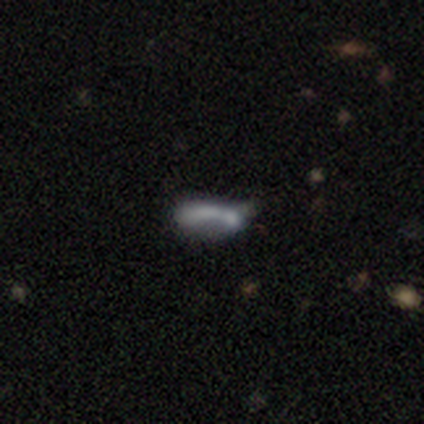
A smooth galaxy with no disk features (62%) that is cigar-shaped (80%). Merging: merger (62%).